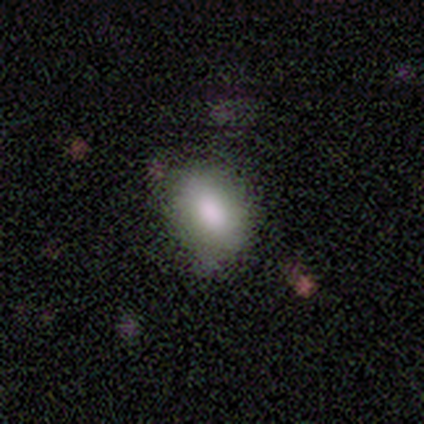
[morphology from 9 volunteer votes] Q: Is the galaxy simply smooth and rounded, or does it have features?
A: smooth — 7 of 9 (78%).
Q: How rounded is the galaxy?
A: in between — 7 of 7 (100%).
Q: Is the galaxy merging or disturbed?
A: none — 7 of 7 (100%).